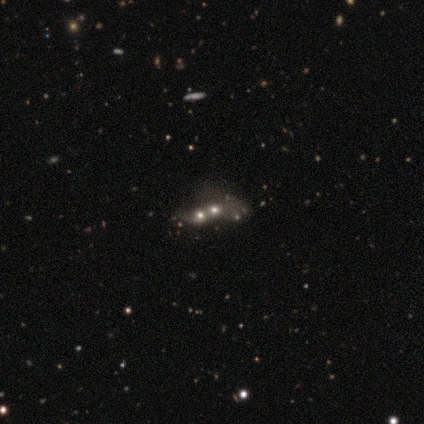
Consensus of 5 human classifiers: This appears to be a star or artifact, not a galaxy (60%).